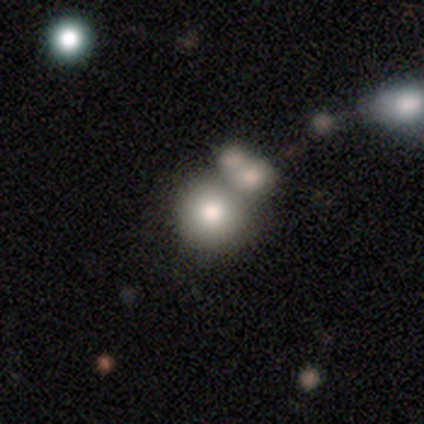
Q: Smooth or featured?
A: smooth (65%); runner-up: featured or disk (19%)
Q: How rounded?
A: round (89%); runner-up: in between (11%)
Q: Merging?
A: none (49%); runner-up: merger (41%)